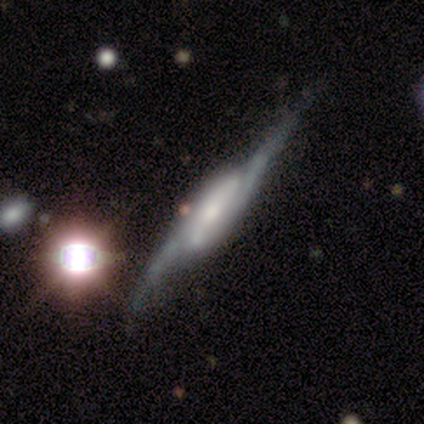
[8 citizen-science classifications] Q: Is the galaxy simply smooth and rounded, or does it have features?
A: featured or disk — 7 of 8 (88%).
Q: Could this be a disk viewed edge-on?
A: no — 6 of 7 (86%).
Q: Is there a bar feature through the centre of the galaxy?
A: strong — 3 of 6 (50%).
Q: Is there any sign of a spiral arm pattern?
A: yes — 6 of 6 (100%).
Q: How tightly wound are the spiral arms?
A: medium — 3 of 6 (50%, tied with loose).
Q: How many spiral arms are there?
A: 2 — 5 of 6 (83%).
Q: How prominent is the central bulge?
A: moderate — 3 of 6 (50%).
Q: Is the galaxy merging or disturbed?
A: none — 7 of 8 (88%).